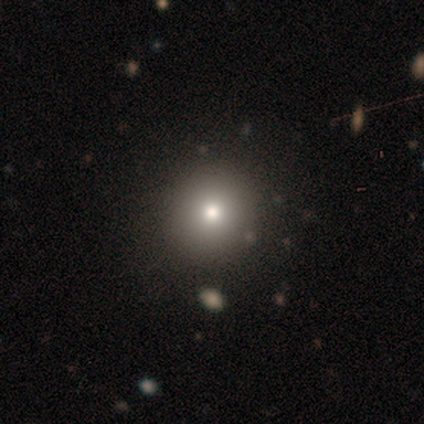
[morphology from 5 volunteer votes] Smooth or featured? 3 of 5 (60%) said smooth. How rounded? 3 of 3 (100%) said round. Merging? 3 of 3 (100%) said none.